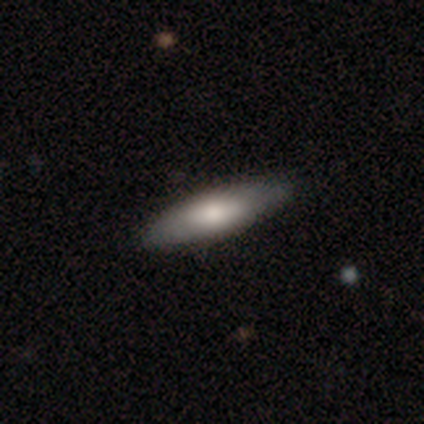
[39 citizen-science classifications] Morphology: type=smooth (64%); roundness=cigar-shaped (64%); merging=none (86%).